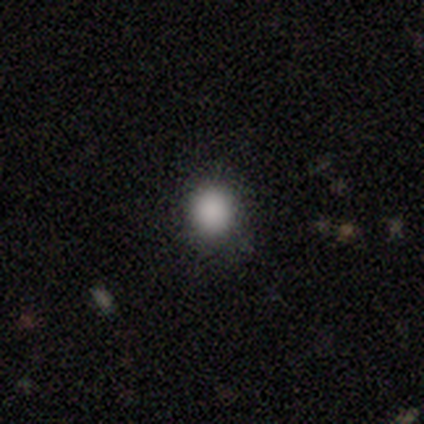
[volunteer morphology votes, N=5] smooth 100%, featured or disk 0%, star or artifact 0%. Down the decision tree: how rounded — round (100%); merging — none (80%).